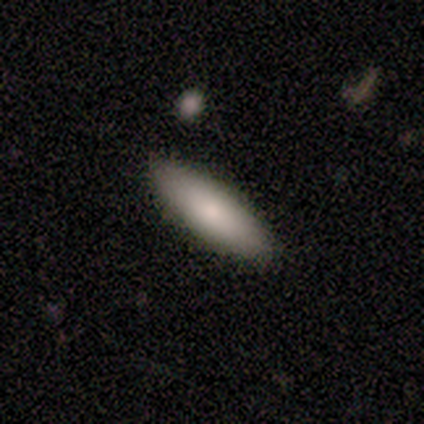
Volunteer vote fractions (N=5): Morphology: type=featured or disk (60%); edge-on=no (67%); bar=no (100%); spiral arms=no (100%); bulge=moderate (50%, tied with none); merging=none (100%).